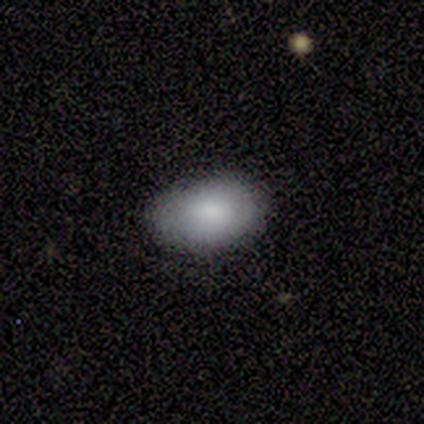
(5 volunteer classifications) Smooth or featured? smooth (100%)
How rounded? in between (80%)
Merging? none (80%)